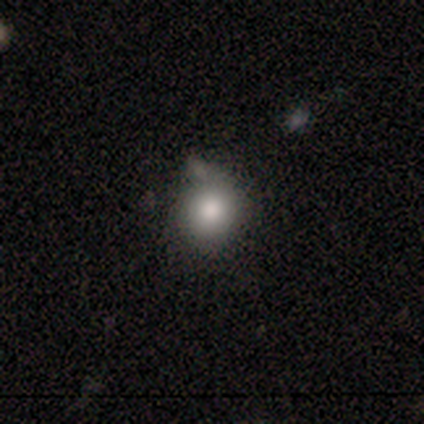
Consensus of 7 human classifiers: Overall: smooth (100%). How rounded: round (100%). Merging: minor disturbance (57%; none 43%).